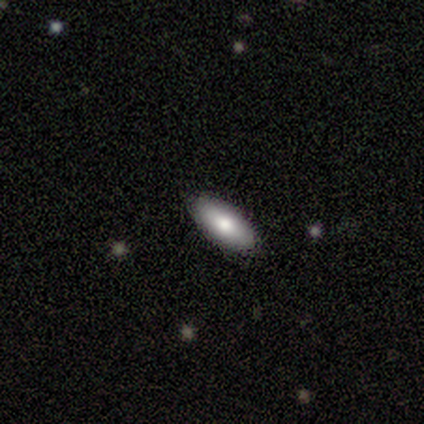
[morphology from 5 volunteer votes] smooth 60%, featured or disk 20%, star or artifact 20%. Down the decision tree: how rounded — in between (100%); merging — none (100%).